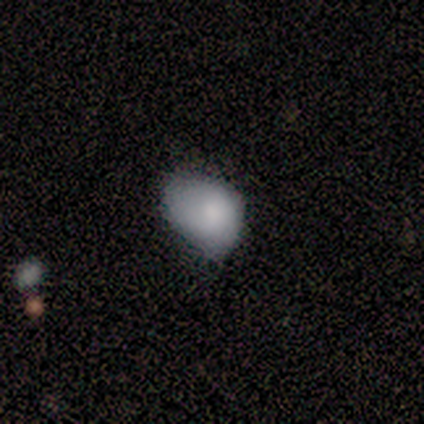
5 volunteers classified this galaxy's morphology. Q: Smooth or featured?
A: smooth (100%)
Q: How rounded?
A: round (60%); runner-up: in between (40%)
Q: Merging?
A: minor disturbance (60%); runner-up: none (40%)